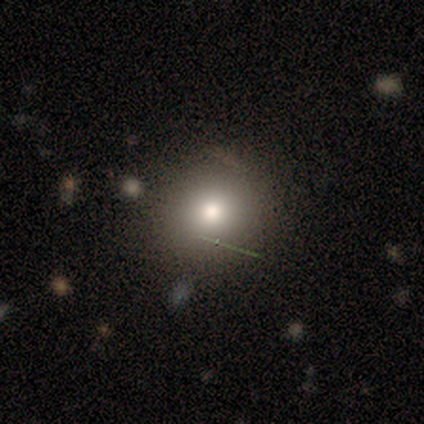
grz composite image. It shows a smooth galaxy with no disk features (86%) that is round (100%). Merging: none (100%).